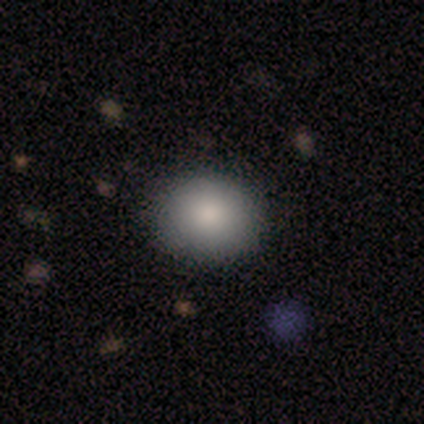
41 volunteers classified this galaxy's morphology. smooth_or_featured: smooth (p=0.85) [alt: star or artifact p=0.10]
how_rounded: round (p=0.57) [alt: in between p=0.43]
merging: none (p=0.92) [alt: minor disturbance p=0.05]